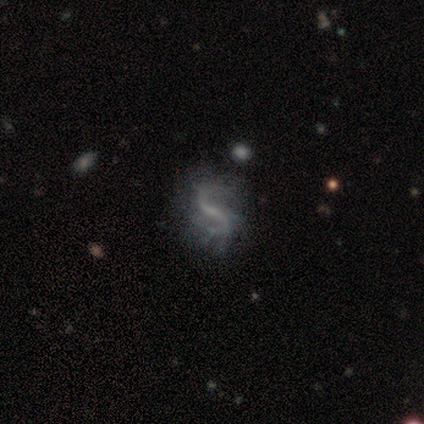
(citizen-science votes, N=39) A featured or disk galaxy (92%) with a weak bar (44%), 2 (90%) loose (79%) spiral arms (81%) and no central bulge (67%).

Vote fractions:
- Smooth or featured? featured or disk: 92% / star or artifact: 5% / smooth: 3%
- Edge-on disk? no: 100% / yes: 0%
- Bar? weak: 44% / no: 33% / strong: 22%
- Spiral arms? yes: 81% / no: 19%
- Spiral winding? loose: 79% / medium: 14% / tight: 7%
- Spiral arm count? 2: 90% / can't tell: 10% / 1: 0% / 3: 0% / 4: 0% / more than 4: 0%
- Bulge size? none: 67% / small: 28% / moderate: 6% / dominant: 0% / large: 0%
- Merging? none: 41% / minor disturbance: 14% / major disturbance: 14% / merger: 0%